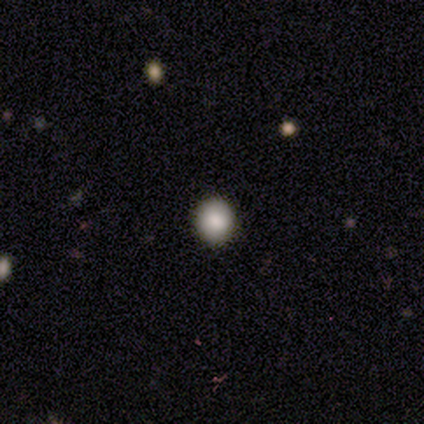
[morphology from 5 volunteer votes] Overall: smooth (100%). How rounded: round (100%). Merging: none (100%).